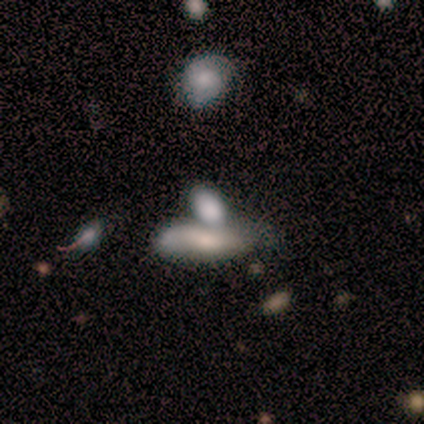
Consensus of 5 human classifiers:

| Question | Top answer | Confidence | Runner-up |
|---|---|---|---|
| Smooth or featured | smooth | 80% | featured or disk (20%) |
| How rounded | in between | 75% | cigar-shaped (25%) |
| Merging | merger | 60% | none (20%) |